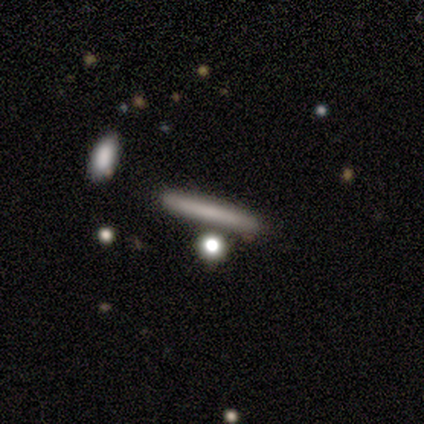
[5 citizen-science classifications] Smooth or featured?
  - smooth: 80% *
  - star or artifact: 20%
  - featured or disk: 0%
How rounded?
  - cigar-shaped: 100% *
  - round: 0%
  - in between: 0%
Merging?
  - none: 100% *
  - minor disturbance: 0%
  - major disturbance: 0%
  - merger: 0%